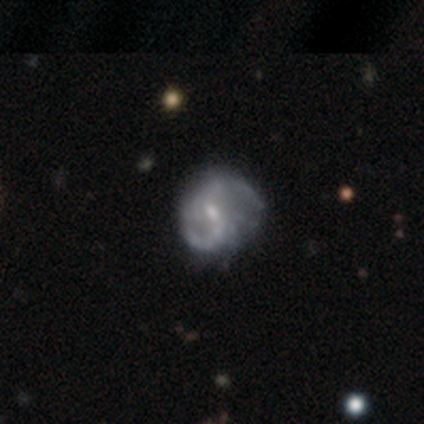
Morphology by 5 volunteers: A featured or disk galaxy (100%) with a weak bar (60%), 2 (100%) medium (50%, tied with loose) spiral arms (80%) and a small central bulge (60%). Merging: minor disturbance (60%).